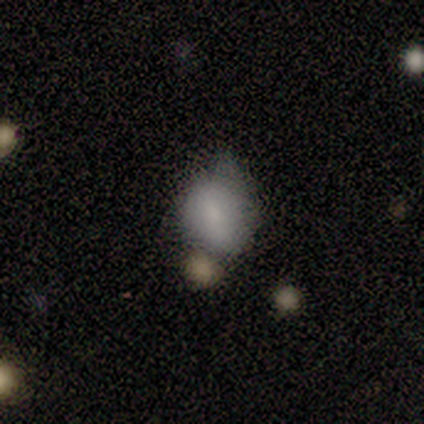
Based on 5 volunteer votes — A smooth galaxy with no disk features (60%) that is in between round and cigar-shaped (67%).

Vote fractions:
- Smooth or featured? smooth: 60% / star or artifact: 40% / featured or disk: 0%
- How rounded? in between: 67% / round: 33% / cigar-shaped: 0%
- Merging? minor disturbance: 67% / major disturbance: 33% / none: 0% / merger: 0%